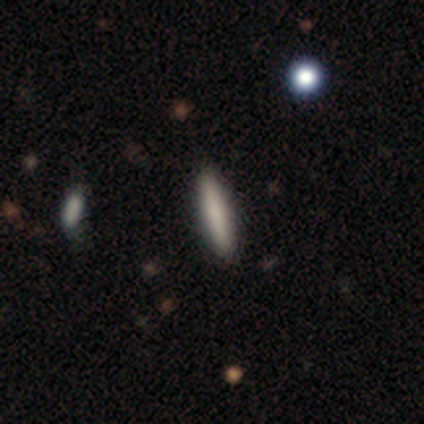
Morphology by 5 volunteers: smooth 60%, featured or disk 20%, star or artifact 20%. Down the decision tree: how rounded — in between (67%); merging — none (100%).